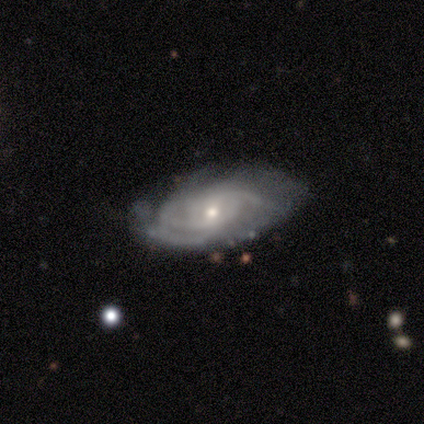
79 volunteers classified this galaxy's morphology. Smooth or featured? featured or disk (92%)
Edge-on disk? no (99%)
Bar? no (60%)
Spiral arms? yes (96%)
Spiral winding? tight (51%)
Spiral arm count? can't tell (35%)
Bulge size? small (54%)
Merging? none (42%)